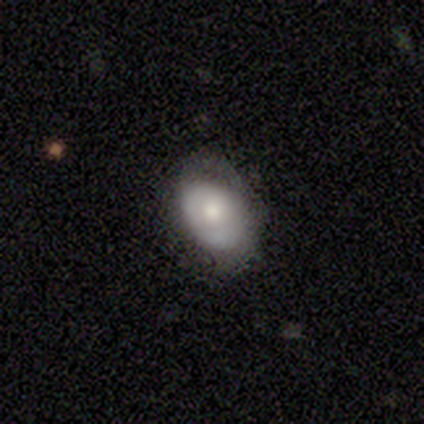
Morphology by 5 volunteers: Smooth or featured? smooth (60%)
How rounded? in between (100%)
Merging? none (75%)